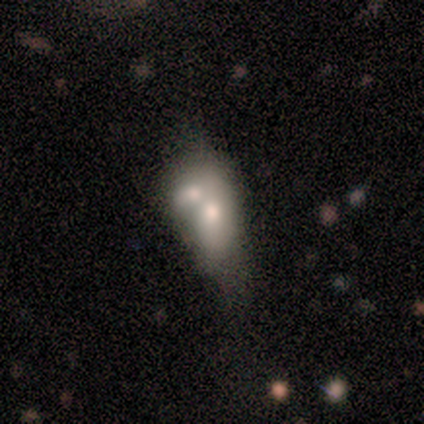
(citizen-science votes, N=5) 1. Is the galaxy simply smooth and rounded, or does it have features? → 60% featured or disk, 20% smooth, 20% star or artifact.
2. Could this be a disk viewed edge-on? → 100% no, 0% yes.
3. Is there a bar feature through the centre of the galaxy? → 67% no, 33% weak, 0% strong.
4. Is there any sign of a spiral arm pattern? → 100% no, 0% yes.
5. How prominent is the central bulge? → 33% large (tied), 33% small (tied), 33% none (tied), 0% dominant, 0% moderate.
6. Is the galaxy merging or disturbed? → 100% merger, 0% none, 0% minor disturbance, 0% major disturbance.